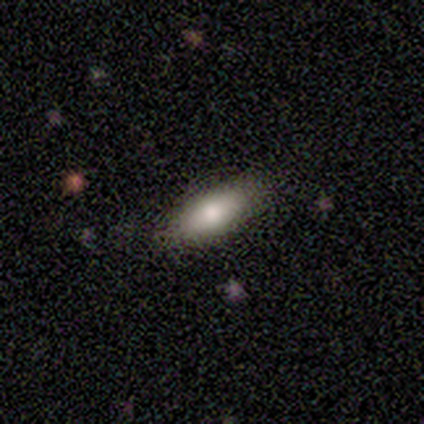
Smooth or featured: smooth — 80% (featured or disk — 20%)
How rounded: in between — 50% (tied with cigar-shaped — 50%)
Merging: none — 80% (minor disturbance — 20%)